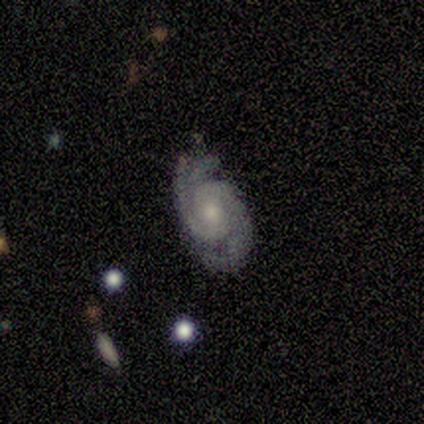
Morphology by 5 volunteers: A featured or disk galaxy (100%) with no bar (100%), 3 (60%) tight (40%, tied with medium) spiral arms (100%) and a moderate central bulge (80%).

Vote fractions:
- Smooth or featured? featured or disk: 100% / smooth: 0% / star or artifact: 0%
- Edge-on disk? no: 100% / yes: 0%
- Bar? no: 100% / strong: 0% / weak: 0%
- Spiral arms? yes: 100% / no: 0%
- Spiral winding? tight: 40% (tied) / medium: 40% (tied) / loose: 20%
- Spiral arm count? 3: 60% / 2: 40% / 1: 0% / 4: 0% / more than 4: 0% / can't tell: 0%
- Bulge size? moderate: 80% / small: 20% / dominant: 0% / large: 0% / none: 0%
- Merging? none: 80% / minor disturbance: 20% / major disturbance: 0% / merger: 0%